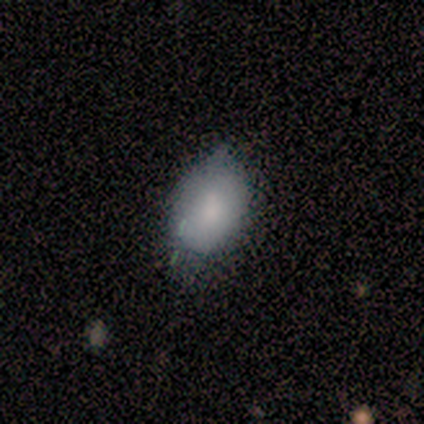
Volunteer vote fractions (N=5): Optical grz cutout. It shows a smooth galaxy with no disk features (100%) that is in between round and cigar-shaped (100%). Merging: none (60%).